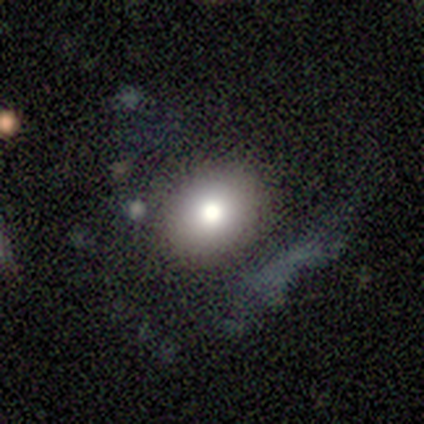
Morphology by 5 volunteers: Volunteers were most divided on "how rounded": round: 67%, in between: 33%, cigar-shaped: 0%. More confident: merging — none (100%); smooth or featured — smooth (60%).